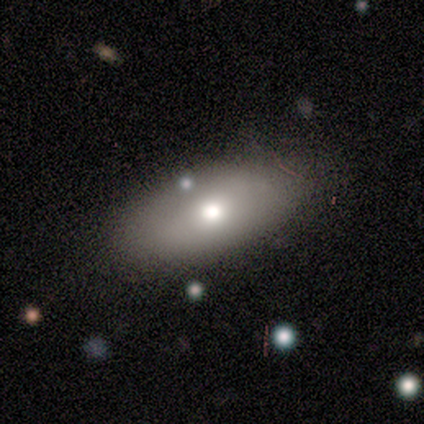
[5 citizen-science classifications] Overall: smooth (100%). How rounded: in between (100%). Merging: none (100%).